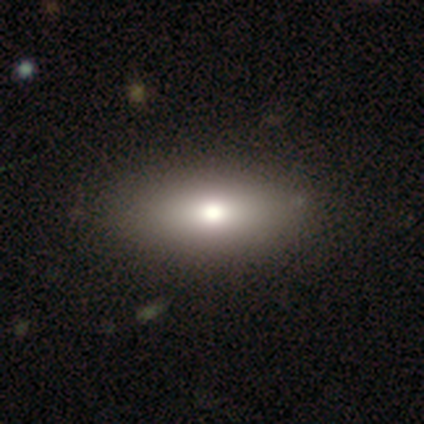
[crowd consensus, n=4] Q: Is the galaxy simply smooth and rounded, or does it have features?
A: smooth — 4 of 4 (100%).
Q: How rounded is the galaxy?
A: in between — 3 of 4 (75%).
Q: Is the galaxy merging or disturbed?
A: none — 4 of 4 (100%).